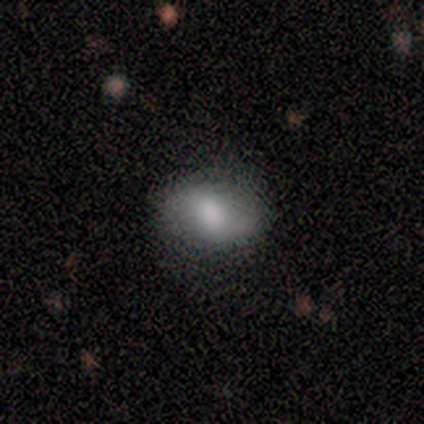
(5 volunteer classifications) This is clearly a smooth galaxy (80%). How rounded: possibly round (50%, tied with in between). Merging: clearly none (80%).